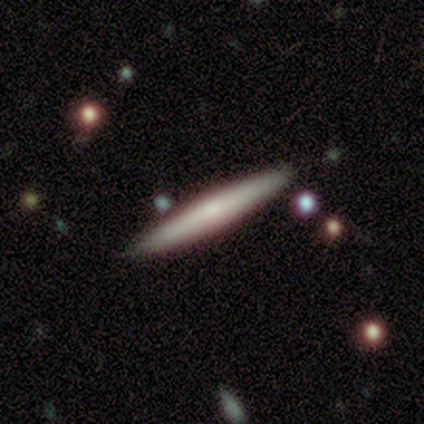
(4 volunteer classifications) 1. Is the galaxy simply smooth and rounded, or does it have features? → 50% smooth, 25% featured or disk, 25% star or artifact.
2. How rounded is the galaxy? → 100% cigar-shaped, 0% round, 0% in between.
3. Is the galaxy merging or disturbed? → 67% none, 33% minor disturbance, 0% major disturbance, 0% merger.